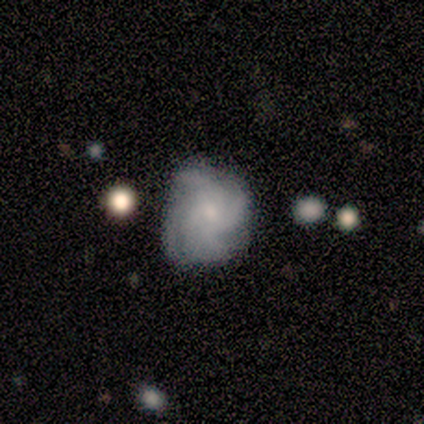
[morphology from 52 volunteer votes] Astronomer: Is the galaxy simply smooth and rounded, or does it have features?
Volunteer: featured or disk — 75%.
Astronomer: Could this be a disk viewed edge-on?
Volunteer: no — 97%.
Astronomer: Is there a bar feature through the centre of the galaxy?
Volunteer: no — 89%.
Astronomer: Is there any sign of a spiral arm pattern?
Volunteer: yes — 97%.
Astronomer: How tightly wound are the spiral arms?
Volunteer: tight — 46% (runner-up: medium, 43%).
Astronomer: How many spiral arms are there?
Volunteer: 4 — 38% (runner-up: can't tell, 30%).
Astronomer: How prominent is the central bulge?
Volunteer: small — 61%.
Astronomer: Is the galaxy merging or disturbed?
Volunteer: none — 57% (runner-up: minor disturbance, 36%).